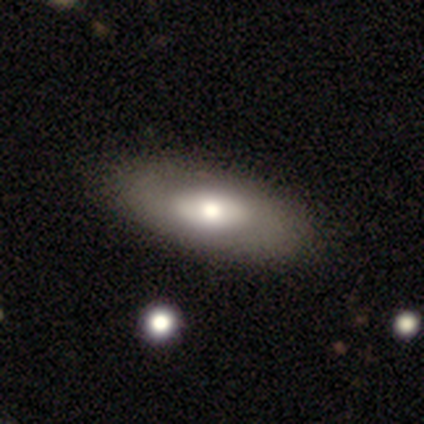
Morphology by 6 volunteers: Smooth or featured? 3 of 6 (50%) said smooth. How rounded? 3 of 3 (100%) said in between. Merging? 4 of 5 (80%) said none.